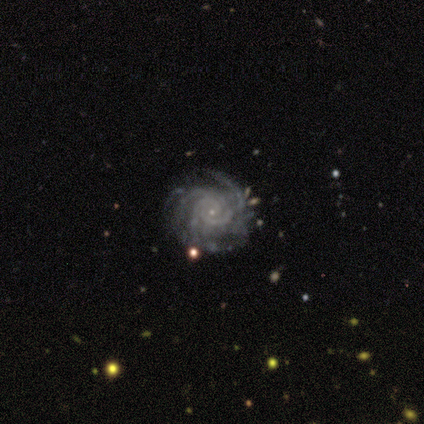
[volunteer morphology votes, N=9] A featured or disk galaxy (89%) with no bar (62%), 2 (25%, tied with 3, more than 4 and can't tell) tight (100%) spiral arms (100%) and a small central bulge (100%).

Vote fractions:
- Smooth or featured? featured or disk: 89% / star or artifact: 11% / smooth: 0%
- Edge-on disk? no: 100% / yes: 0%
- Bar? no: 62% / weak: 25% / strong: 12%
- Spiral arms? yes: 100% / no: 0%
- Spiral winding? tight: 100% / medium: 0% / loose: 0%
- Spiral arm count? 2: 25% (tied) / 3: 25% (tied) / more than 4: 25% (tied) / can't tell: 25% (tied) / 1: 0% / 4: 0%
- Bulge size? small: 100% / dominant: 0% / large: 0% / moderate: 0% / none: 0%
- Merging? none: 75% / minor disturbance: 25% / major disturbance: 0% / merger: 0%